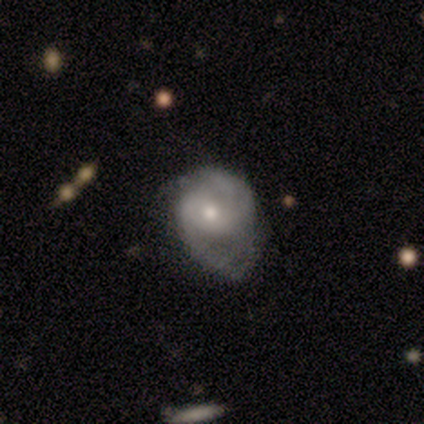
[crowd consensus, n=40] Smooth or featured?
  - featured or disk: 78% *
  - smooth: 22%
  - star or artifact: 0%
Edge-on disk?
  - no: 90% *
  - yes: 10%
Bar?
  - no: 61% *
  - weak: 32%
  - strong: 7%
Spiral arms?
  - yes: 96% *
  - no: 4%
Spiral winding?
  - medium: 48% *
  - tight: 30%
  - loose: 22%
Spiral arm count?
  - 2: 56% *
  - can't tell: 19%
  - 1: 11%
  - 3: 11%
  - 4: 4%
  - more than 4: 0%
Bulge size?
  - moderate: 54% *
  - small: 43%
  - large: 4%
  - dominant: 0%
  - none: 0%
Merging?
  - minor disturbance: 45% *
  - none: 30%
  - major disturbance: 25%
  - merger: 0%